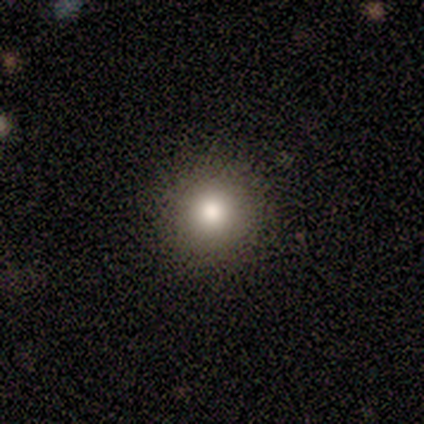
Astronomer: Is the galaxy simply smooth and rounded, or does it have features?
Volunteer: smooth — 100%.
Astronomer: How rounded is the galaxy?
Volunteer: round — 100%.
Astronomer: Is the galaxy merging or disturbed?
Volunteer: none — 100%.